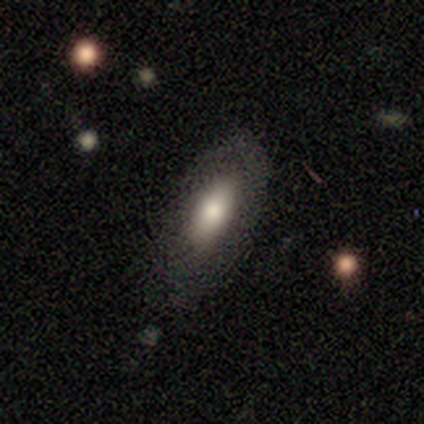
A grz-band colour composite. It shows a smooth galaxy with no disk features (65%) that is in between round and cigar-shaped (92%). Merging: none (82%).